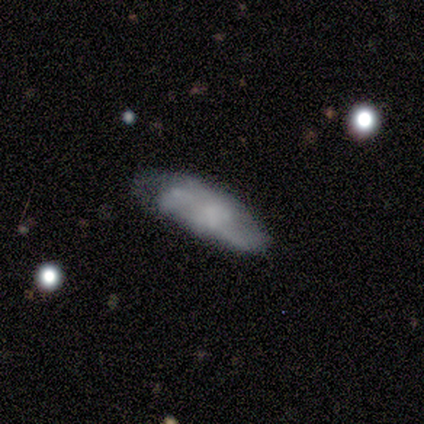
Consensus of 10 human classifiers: This appears to be a smooth galaxy with no disk features (70%) that is in between round and cigar-shaped (86%). Merging: none (50%).